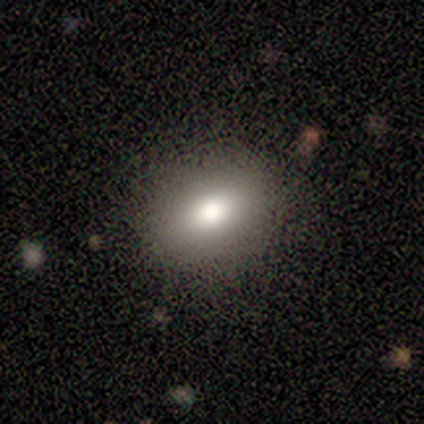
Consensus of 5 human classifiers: smooth 100%, featured or disk 0%, star or artifact 0%. Down the decision tree: how rounded — round (60%); merging — none (100%).